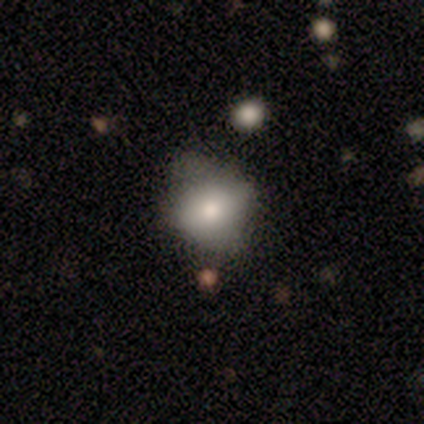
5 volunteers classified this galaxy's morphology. Q: Smooth or featured?
A: smooth (60%); runner-up: featured or disk (40%)
Q: How rounded?
A: round (67%); runner-up: in between (33%)
Q: Merging?
A: none (40%); tied with: minor disturbance (40%)